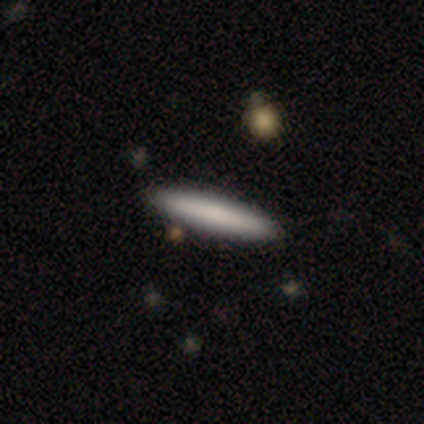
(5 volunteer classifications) This is clearly a smooth galaxy (80%). How rounded: clearly cigar-shaped (100%). Merging: clearly none (80%).